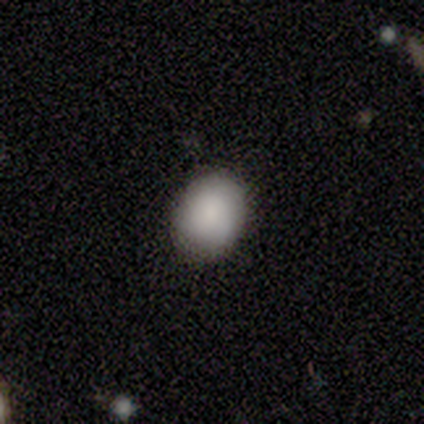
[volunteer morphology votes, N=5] type=smooth (80%); roundness=round (75%); merging=none (80%).